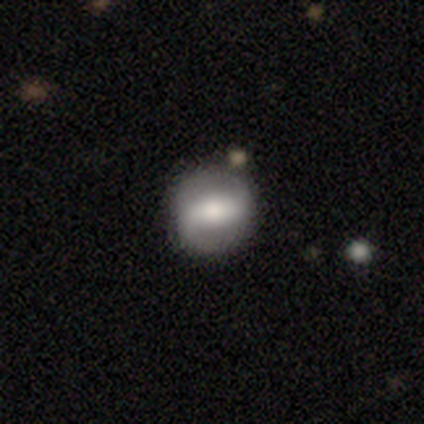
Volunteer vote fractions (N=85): Volunteers were most divided on "spiral winding": medium: 48%, loose: 29%, tight: 24%. More confident: spiral arm count — 2 (98%); edge-on disk — no (93%); spiral arms — yes (84%); merging — none (77%); smooth or featured — featured or disk (64%); bulge size — moderate (62%); bar — strong (50%).